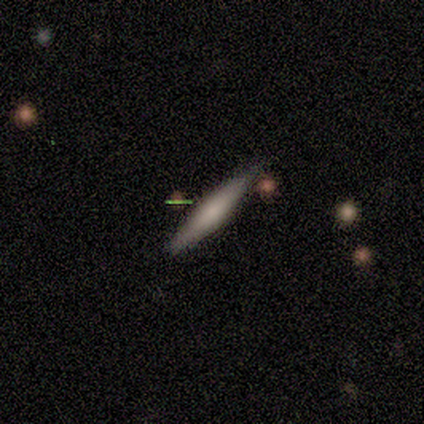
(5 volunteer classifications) Smooth or featured?
  - smooth: 60% *
  - featured or disk: 20%
  - star or artifact: 20%
How rounded?
  - cigar-shaped: 100% *
  - round: 0%
  - in between: 0%
Merging?
  - none: 50% * (tied)
  - minor disturbance: 50% * (tied)
  - major disturbance: 0%
  - merger: 0%